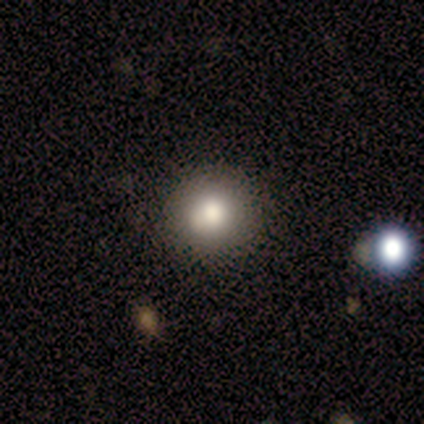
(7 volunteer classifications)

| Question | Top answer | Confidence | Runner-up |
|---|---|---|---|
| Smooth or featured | smooth | 57% | star or artifact (43%) |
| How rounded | round | 100% | — |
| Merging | none | 100% | — |